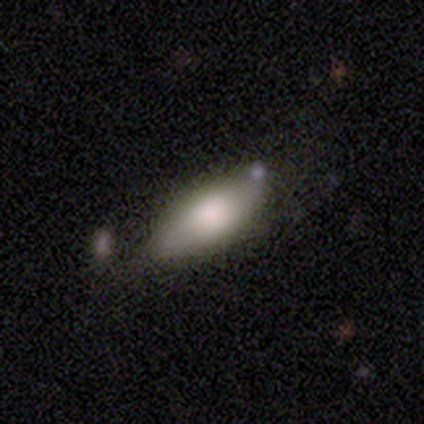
Q: Smooth or featured?
A: smooth (68%); runner-up: featured or disk (21%)
Q: How rounded?
A: in between (88%); runner-up: cigar-shaped (8%)
Q: Merging?
A: none (62%); runner-up: minor disturbance (29%)